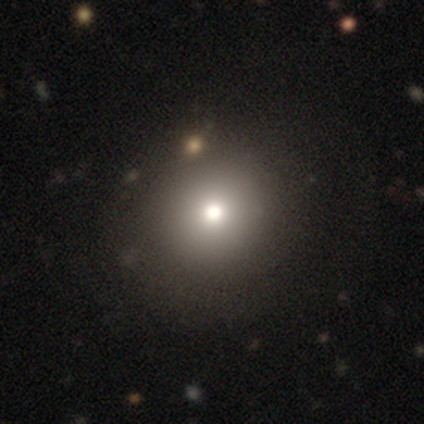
smooth 85%, star or artifact 10%, featured or disk 5%. Down the decision tree: how rounded — round (86%); merging — none (57%).